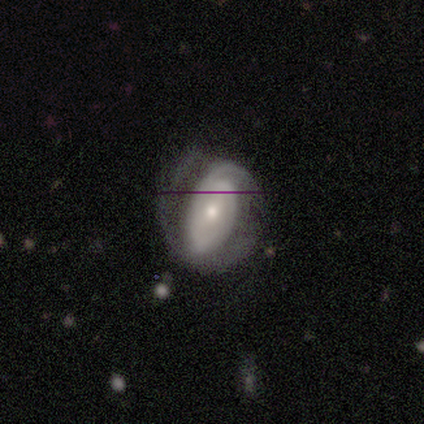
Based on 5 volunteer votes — This appears to be a featured or disk galaxy (100%) with no bar (60%), 2 (50%, tied with can't tell) loose (50%) spiral arms (80%) and a moderate central bulge (60%). Merging: minor disturbance (40%, tied with major disturbance).